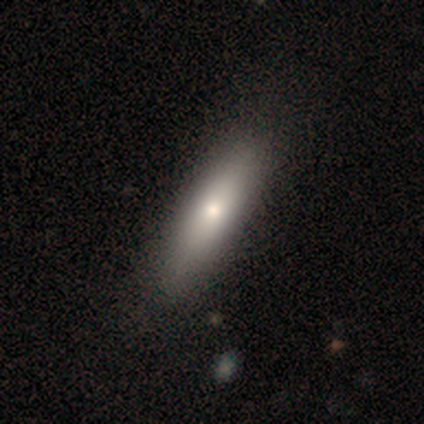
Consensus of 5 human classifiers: Smooth or featured? 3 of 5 (60%) said featured or disk. Edge-on disk? 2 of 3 (67%) said no. Bar? 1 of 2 (50%, tied with no) said strong. Spiral arms? 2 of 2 (100%) said no. Bulge size? 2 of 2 (100%) said moderate. Merging? 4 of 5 (80%) said none.